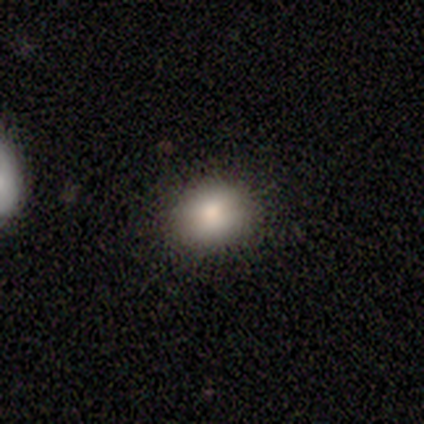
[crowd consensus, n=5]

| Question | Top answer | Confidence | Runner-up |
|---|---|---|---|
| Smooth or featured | smooth | 80% | star or artifact (20%) |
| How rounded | in between | 100% | — |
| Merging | none | 75% | minor disturbance (25%) |